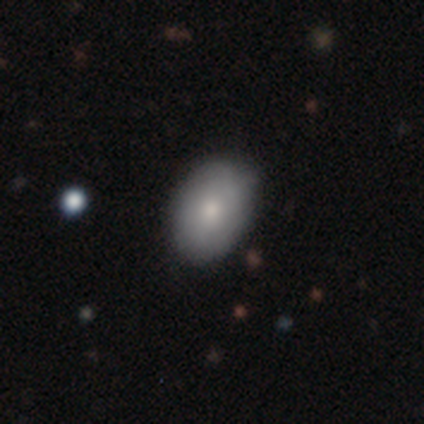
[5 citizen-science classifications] Smooth or featured? smooth (60%)
How rounded? in between (67%)
Merging? none (100%)